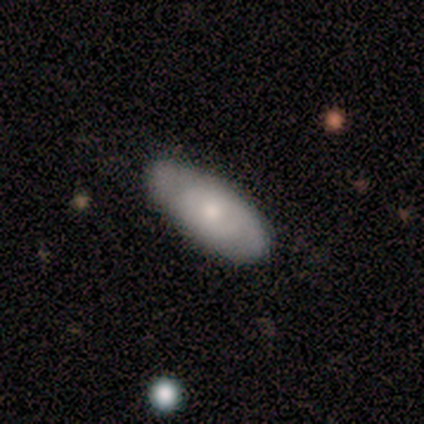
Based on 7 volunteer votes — smooth 57%, featured or disk 29%, star or artifact 14%. Down the decision tree: how rounded — in between (100%); merging — none (100%).